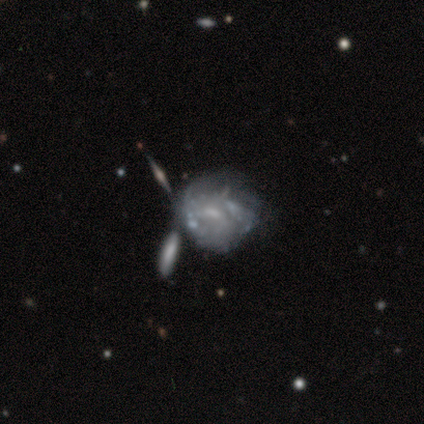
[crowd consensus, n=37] Smooth or featured? 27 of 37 (73%) said featured or disk. Edge-on disk? 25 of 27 (93%) said no. Bar? 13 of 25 (52%) said no. Spiral arms? 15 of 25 (60%) said no. Bulge size? 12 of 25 (48%) said small. Merging? 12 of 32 (38%) said minor disturbance.